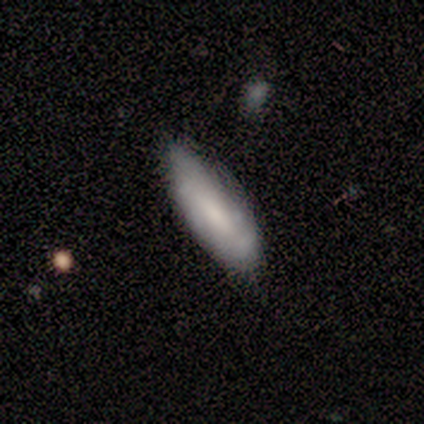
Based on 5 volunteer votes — A smooth galaxy with no disk features (60%) that is in between round and cigar-shaped (100%).

Vote fractions:
- Smooth or featured? smooth: 60% / featured or disk: 40% / star or artifact: 0%
- How rounded? in between: 100% / round: 0% / cigar-shaped: 0%
- Merging? none: 40% (tied) / minor disturbance: 40% (tied) / major disturbance: 20% / merger: 0%